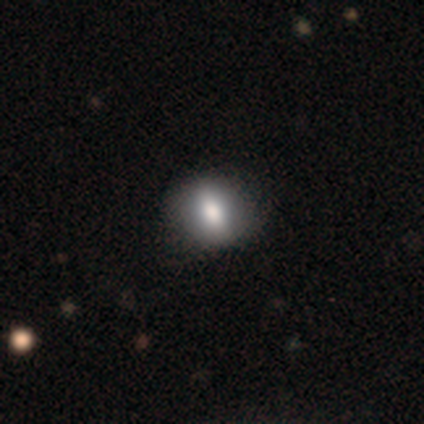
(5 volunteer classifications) A smooth galaxy with no disk features (40%, tied with featured or disk) that is in between round and cigar-shaped (100%).

Vote fractions:
- Smooth or featured? smooth: 40% (tied) / featured or disk: 40% (tied) / star or artifact: 20%
- How rounded? in between: 100% / round: 0% / cigar-shaped: 0%
- Merging? none: 100% / minor disturbance: 0% / major disturbance: 0% / merger: 0%